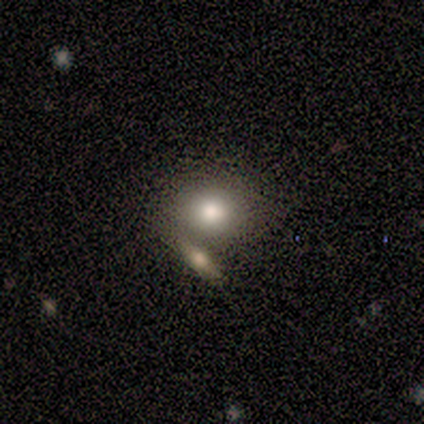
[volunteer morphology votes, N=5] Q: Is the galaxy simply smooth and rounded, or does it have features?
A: smooth — 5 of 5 (100%).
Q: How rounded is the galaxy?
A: round — 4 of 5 (80%).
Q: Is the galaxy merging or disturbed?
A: none — 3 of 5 (60%).